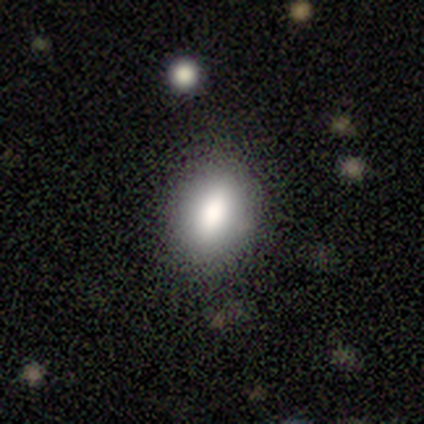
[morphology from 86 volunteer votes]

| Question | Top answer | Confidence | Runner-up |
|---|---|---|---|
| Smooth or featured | smooth | 84% | featured or disk (8%) |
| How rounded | in between | 75% | round (22%) |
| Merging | none | 82% | minor disturbance (13%) |